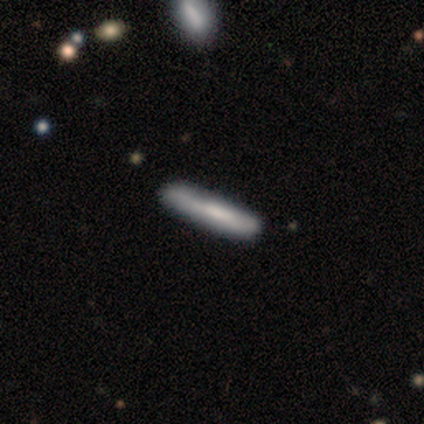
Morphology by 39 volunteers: This is likely a smooth galaxy (67%). How rounded: clearly cigar-shaped (100%). Merging: likely none (63%).